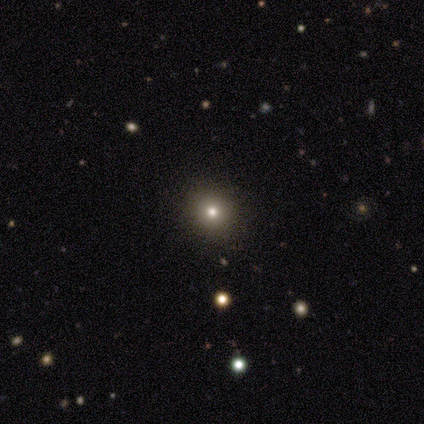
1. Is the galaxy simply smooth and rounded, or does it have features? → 71% smooth, 29% star or artifact, 0% featured or disk.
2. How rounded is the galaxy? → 80% round, 20% in between, 0% cigar-shaped.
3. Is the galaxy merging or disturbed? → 100% none, 0% minor disturbance, 0% major disturbance, 0% merger.